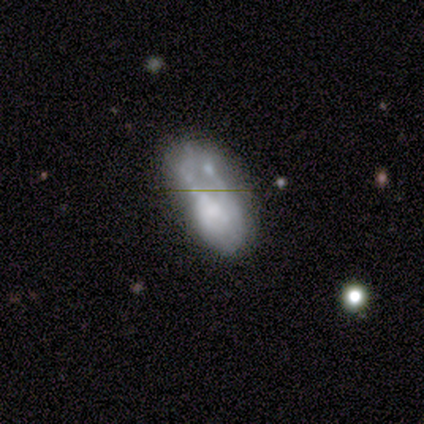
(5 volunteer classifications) A featured or disk galaxy (80%) with no bar (100%), no spiral arms (100%) and no central bulge (75%).

Vote fractions:
- Smooth or featured? featured or disk: 80% / smooth: 20% / star or artifact: 0%
- Edge-on disk? no: 100% / yes: 0%
- Bar? no: 100% / strong: 0% / weak: 0%
- Spiral arms? no: 100% / yes: 0%
- Bulge size? none: 75% / small: 25% / dominant: 0% / large: 0% / moderate: 0%
- Merging? major disturbance: 60% / none: 20% / minor disturbance: 20% / merger: 0%